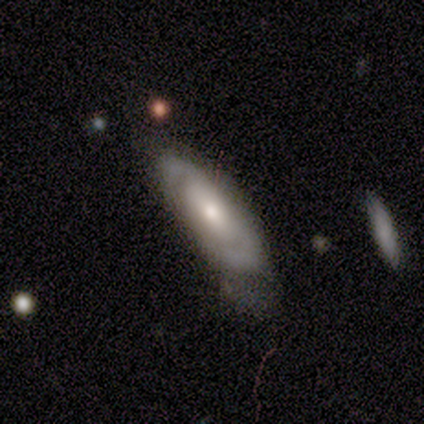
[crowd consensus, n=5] Overall: featured or disk (60%; smooth 40%). Edge-on disk: no (100%). Bar: no (100%). Spiral arms: no (67%; yes 33%). Bulge size: moderate (67%; small 33%). Merging: none (80%).